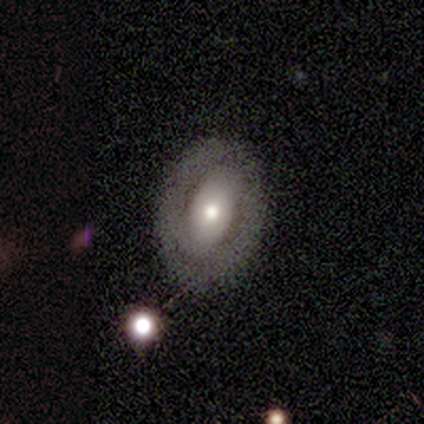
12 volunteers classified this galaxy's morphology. Overall: featured or disk (67%; smooth 33%). Edge-on disk: no (100%). Bar: no (62%; weak 25%). Spiral arms: no (62%; yes 38%). Bulge size: moderate (62%; small 38%). Merging: none (83%).